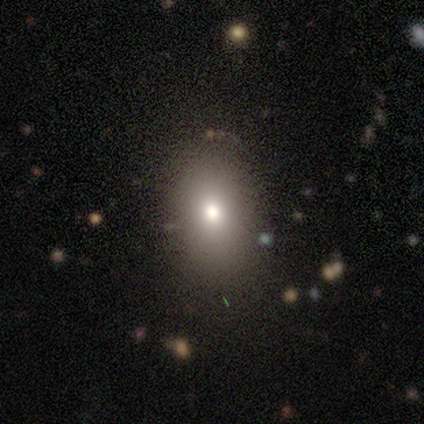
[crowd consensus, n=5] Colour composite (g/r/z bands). It shows a smooth galaxy with no disk features (100%) that is round (60%). Merging: none (100%).